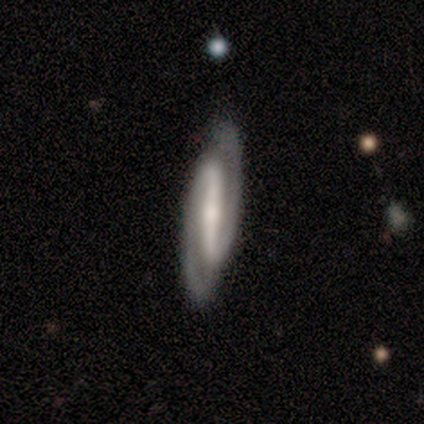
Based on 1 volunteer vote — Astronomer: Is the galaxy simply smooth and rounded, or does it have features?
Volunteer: featured or disk — 100%.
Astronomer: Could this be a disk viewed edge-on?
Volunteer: yes — 100%.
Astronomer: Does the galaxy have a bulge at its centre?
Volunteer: none — 100%.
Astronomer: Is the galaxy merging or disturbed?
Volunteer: none — 100%.